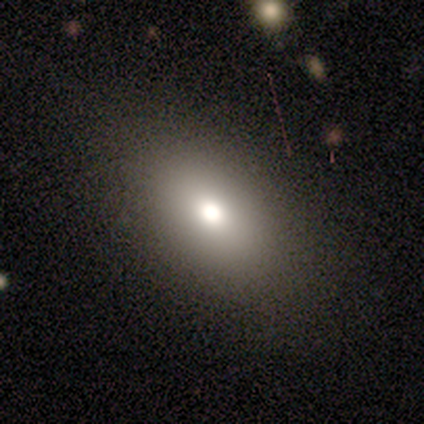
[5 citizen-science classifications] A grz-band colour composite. It shows a smooth galaxy with no disk features (100%) that is in between round and cigar-shaped (100%). Merging: none (100%).